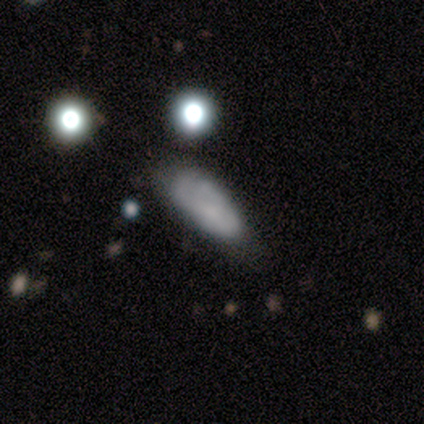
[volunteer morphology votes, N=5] type=smooth (60%); roundness=in between (67%); merging=none (60%).